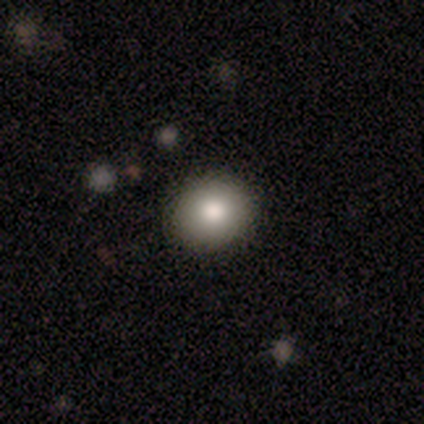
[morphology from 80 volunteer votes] Q: Smooth or featured?
A: smooth (86%); runner-up: featured or disk (12%)
Q: How rounded?
A: round (77%); runner-up: in between (23%)
Q: Merging?
A: none (75%); runner-up: minor disturbance (1%)